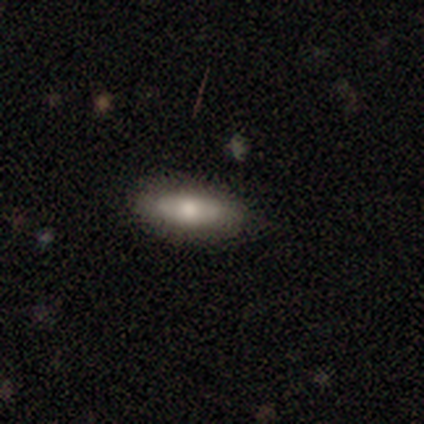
This is clearly a smooth galaxy (80%). How rounded: possibly in between (50%, tied with cigar-shaped). Merging: clearly none (100%).